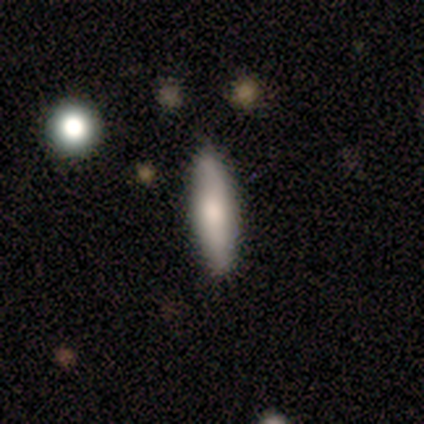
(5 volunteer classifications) smooth_or_featured: featured or disk (p=0.80) [alt: smooth p=0.20]
disk_edge_on: yes (p=0.50) [tied with: no p=0.50]
edge_on_bulge: boxy (p=0.50) [tied with: rounded p=0.50]
merging: none (p=0.80) [alt: major disturbance p=0.20]